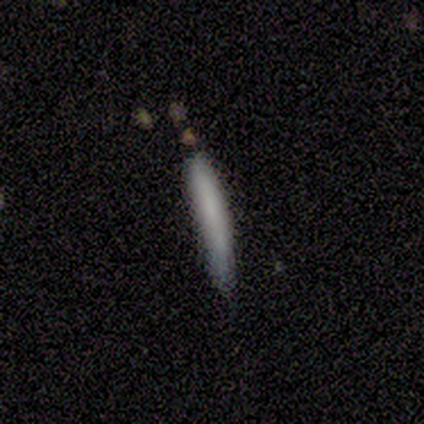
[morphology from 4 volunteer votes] A smooth galaxy with no disk features (75%) that is cigar-shaped (100%).

Vote fractions:
- Smooth or featured? smooth: 75% / featured or disk: 25% / star or artifact: 0%
- How rounded? cigar-shaped: 100% / round: 0% / in between: 0%
- Merging? none: 75% / minor disturbance: 25% / major disturbance: 0% / merger: 0%